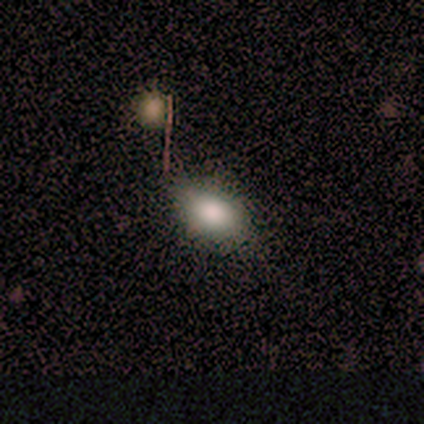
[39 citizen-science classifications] This is clearly a smooth galaxy (85%). How rounded: likely in between (76%). Merging: likely none (68%).